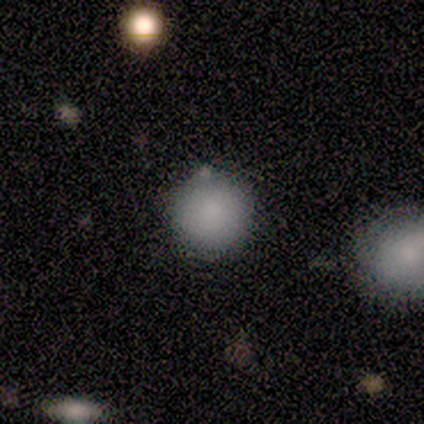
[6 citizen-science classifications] Volunteers were most divided on "merging": none: 60%, merger: 40%, minor disturbance: 0%, major disturbance: 0%. More confident: how rounded — round (100%); smooth or featured — smooth (83%).